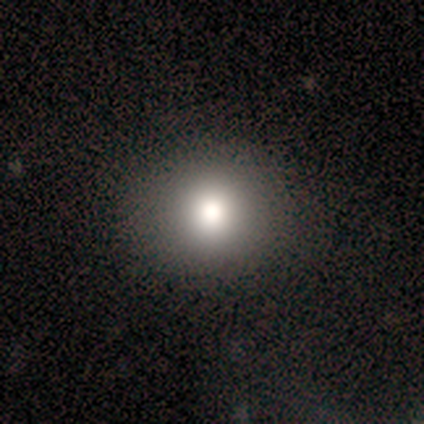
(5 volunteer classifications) Overall: smooth (100%). How rounded: round (100%). Merging: none (100%).